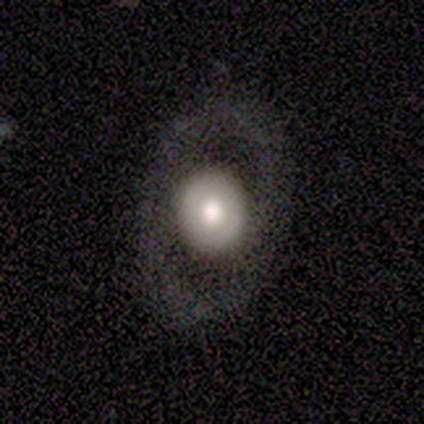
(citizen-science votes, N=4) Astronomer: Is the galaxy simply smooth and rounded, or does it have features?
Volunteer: featured or disk — 75%.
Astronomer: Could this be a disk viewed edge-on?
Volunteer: no — 100%.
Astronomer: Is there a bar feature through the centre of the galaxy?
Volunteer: no — 67%.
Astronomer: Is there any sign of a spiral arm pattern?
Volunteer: no — 67%.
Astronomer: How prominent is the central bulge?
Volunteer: moderate — 100%.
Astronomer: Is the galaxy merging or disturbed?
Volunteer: none — 75%.